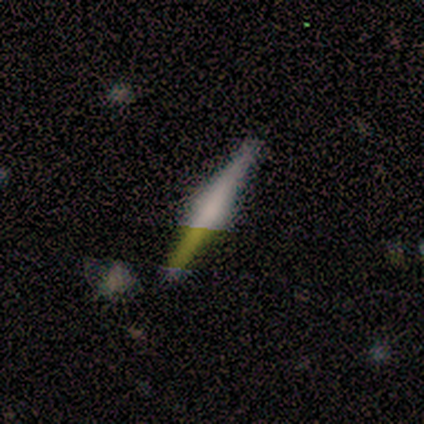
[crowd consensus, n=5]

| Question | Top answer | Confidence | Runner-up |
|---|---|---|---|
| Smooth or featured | featured or disk | 80% | star or artifact (20%) |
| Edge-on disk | yes | 100% | — |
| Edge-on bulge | rounded | 50% | boxy (25%) |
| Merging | none | 75% | merger (25%) |